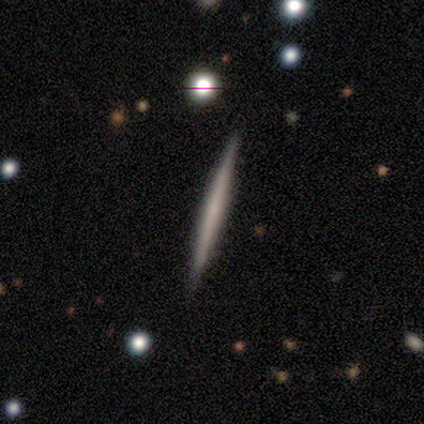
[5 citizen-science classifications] Smooth or featured: smooth — 60% (featured or disk — 40%)
How rounded: cigar-shaped — 100%
Merging: none — 100%